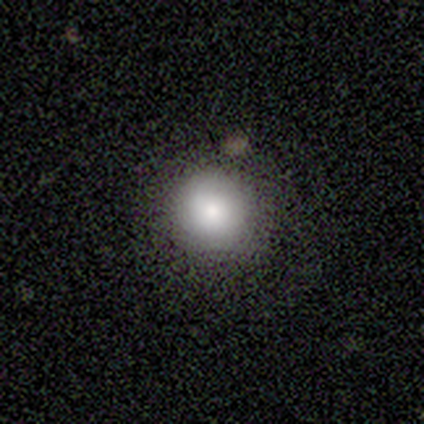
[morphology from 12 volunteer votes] A smooth galaxy with no disk features (92%) that is round (100%).

Vote fractions:
- Smooth or featured? smooth: 92% / star or artifact: 8% / featured or disk: 0%
- How rounded? round: 100% / in between: 0% / cigar-shaped: 0%
- Merging? none: 100% / minor disturbance: 0% / major disturbance: 0% / merger: 0%